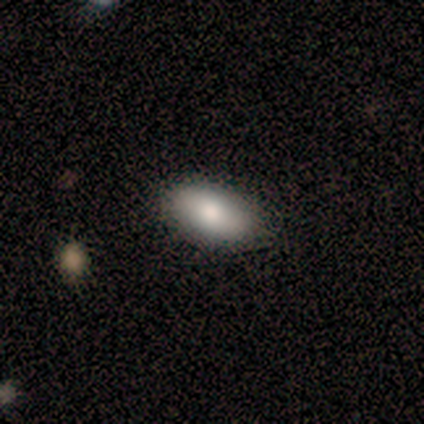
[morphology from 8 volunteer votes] Smooth or featured: smooth — 100%
How rounded: in between — 88% (round — 12%)
Merging: none — 100%